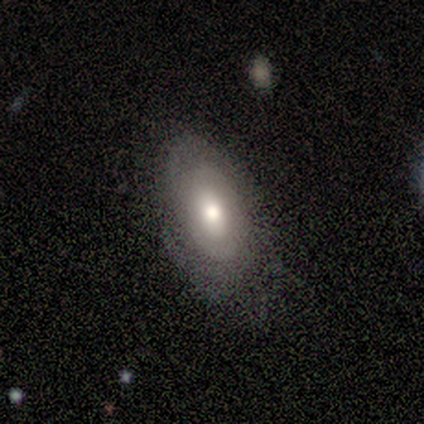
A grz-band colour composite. It shows a featured or disk galaxy (59%) with no bar (82%), no spiral arms (53%) and a moderate central bulge (65%). Merging: none (82%).